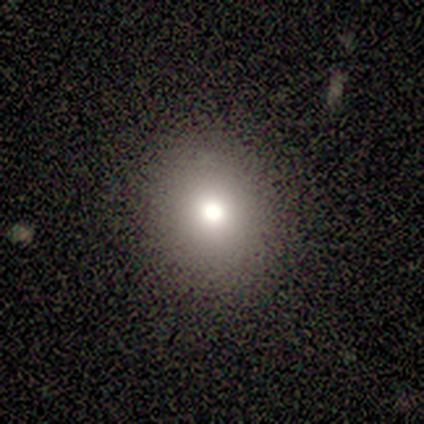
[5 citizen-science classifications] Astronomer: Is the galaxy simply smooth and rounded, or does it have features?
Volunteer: smooth — 60% (runner-up: star or artifact, 40%).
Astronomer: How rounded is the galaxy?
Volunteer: round — 67%.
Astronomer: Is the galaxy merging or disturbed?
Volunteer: none — 100%.